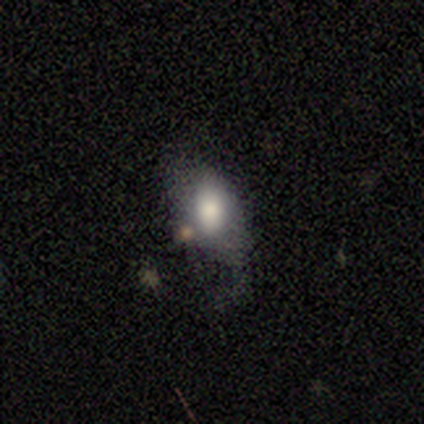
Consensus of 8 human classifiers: A smooth galaxy with no disk features (88%) that is in between round and cigar-shaped (100%). Merging: minor disturbance (43%).